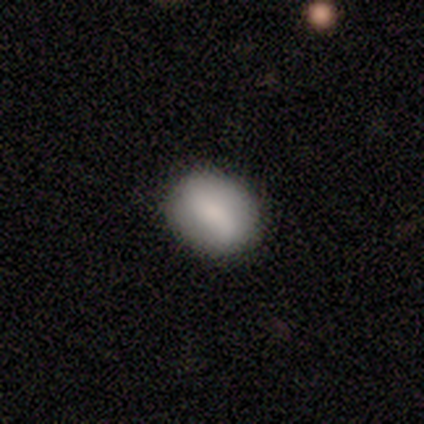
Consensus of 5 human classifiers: Smooth or featured?
  - smooth: 80% *
  - featured or disk: 20%
  - star or artifact: 0%
How rounded?
  - round: 50% * (tied)
  - in between: 50% * (tied)
  - cigar-shaped: 0%
Merging?
  - none: 60% *
  - minor disturbance: 40%
  - major disturbance: 0%
  - merger: 0%